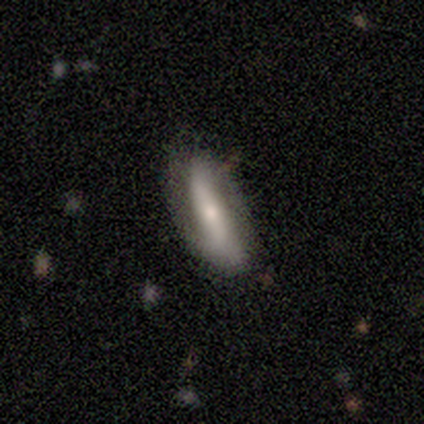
This appears to be a featured or disk galaxy (60%) with no bar (67%), 2 (100%) loose (100%) spiral arms (67%) and a small central bulge (67%). Merging: none (80%).